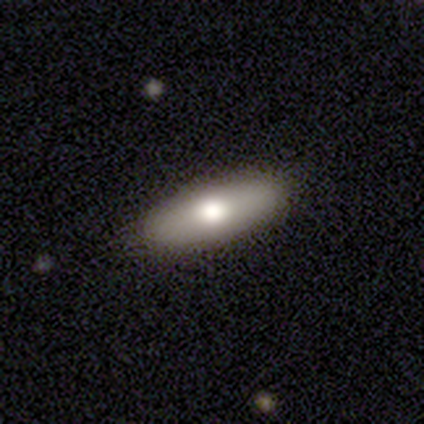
This appears to be a smooth galaxy with no disk features (66%) that is in between round and cigar-shaped (68%). Merging: none (92%).